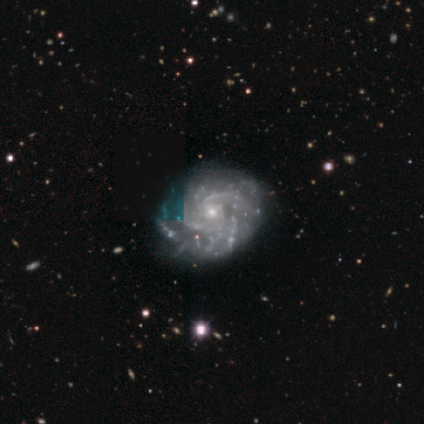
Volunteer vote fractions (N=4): Morphology: type=featured or disk (75%); edge-on=no (100%); bar=no (67%); spiral arms=yes (100%); winding=tight (100%); arm count=2 (33%, tied with more than 4 and can't tell); bulge=small (100%); merging=none (100%).